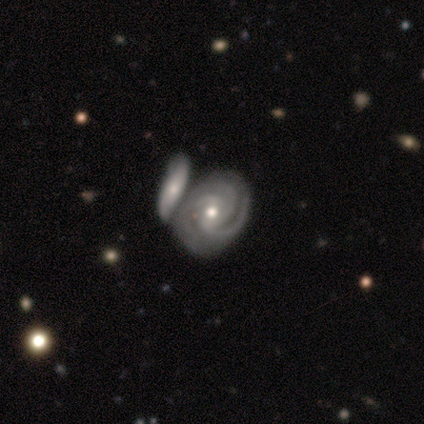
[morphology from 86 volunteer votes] A featured or disk galaxy (90%) with no bar (48%), 3 (67%) tight (67%) spiral arms (100%) and a moderate central bulge (70%).

Vote fractions:
- Smooth or featured? featured or disk: 90% / star or artifact: 6% / smooth: 5%
- Edge-on disk? no: 95% / yes: 5%
- Bar? no: 48% / weak: 38% / strong: 14%
- Spiral arms? yes: 100% / no: 0%
- Spiral winding? tight: 67% / medium: 30% / loose: 3%
- Spiral arm count? 3: 67% / can't tell: 15% / 2: 11% / 4: 5% / 1: 1% / more than 4: 0%
- Bulge size? moderate: 70% / small: 29% / large: 1% / dominant: 0% / none: 0%
- Merging? merger: 46% / none: 37% / minor disturbance: 12% / major disturbance: 5%